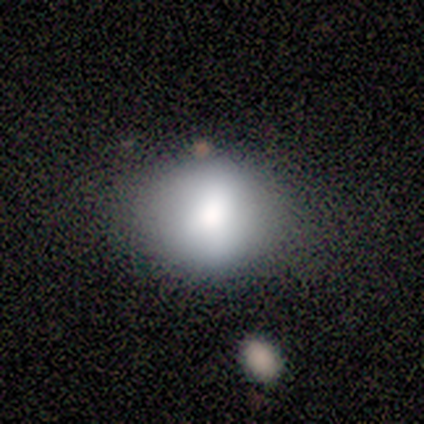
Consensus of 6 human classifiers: Morphology: type=smooth (100%); roundness=round (50%, tied with in between); merging=none (67%).